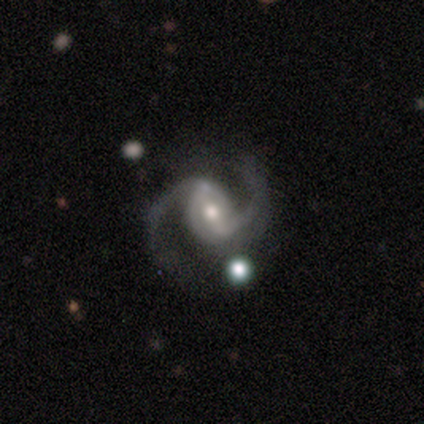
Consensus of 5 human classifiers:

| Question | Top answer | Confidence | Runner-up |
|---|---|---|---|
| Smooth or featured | smooth | 60% | featured or disk (40%) |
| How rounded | round | 67% | in between (33%) |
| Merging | none | 80% | minor disturbance (20%) |